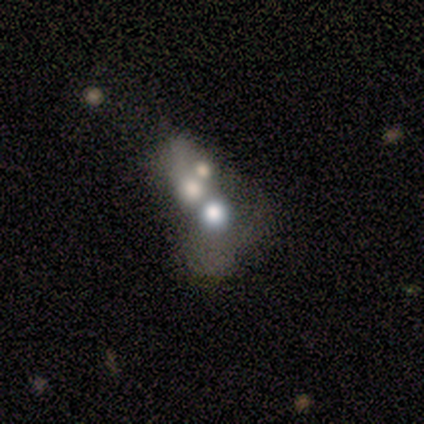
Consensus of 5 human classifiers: Q: Smooth or featured?
A: featured or disk (60%); runner-up: smooth (20%)
Q: Edge-on disk?
A: no (100%)
Q: Bar?
A: no (100%)
Q: Spiral arms?
A: no (100%)
Q: Bulge size?
A: large (67%); runner-up: moderate (33%)
Q: Merging?
A: merger (100%)